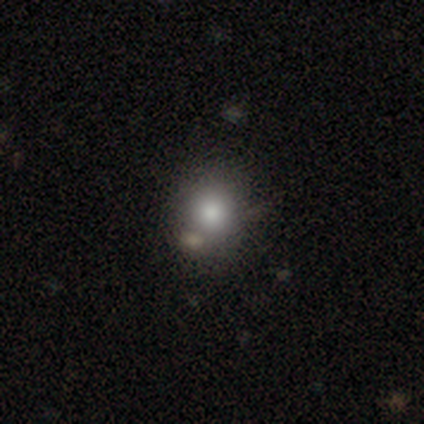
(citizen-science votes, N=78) Smooth or featured? 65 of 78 (83%) said smooth. How rounded? 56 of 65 (86%) said round. Merging? 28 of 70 (40%) said none.